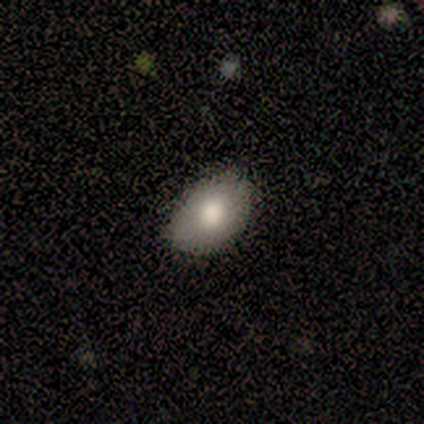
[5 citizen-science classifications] Smooth or featured?
  - smooth: 80% *
  - star or artifact: 20%
  - featured or disk: 0%
How rounded?
  - round: 50% * (tied)
  - in between: 50% * (tied)
  - cigar-shaped: 0%
Merging?
  - none: 100% *
  - minor disturbance: 0%
  - major disturbance: 0%
  - merger: 0%